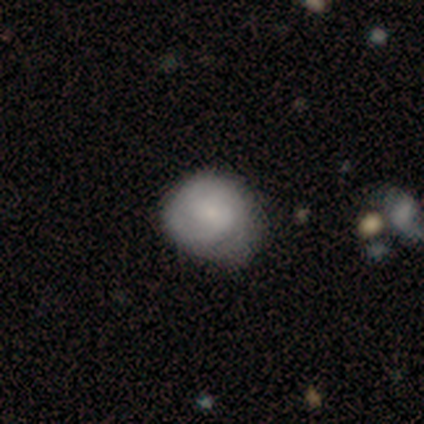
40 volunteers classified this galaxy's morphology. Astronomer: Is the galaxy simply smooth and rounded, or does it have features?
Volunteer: smooth — 57% (runner-up: featured or disk, 42%).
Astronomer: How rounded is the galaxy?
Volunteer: round — 61% (runner-up: in between, 39%).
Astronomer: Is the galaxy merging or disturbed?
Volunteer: none — 35% (runner-up: minor disturbance, 30%).